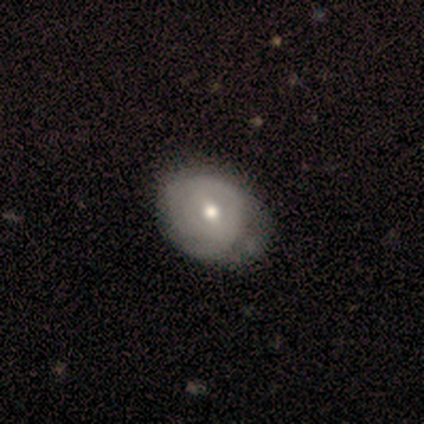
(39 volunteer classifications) smooth-or-featured: featured or disk: 59% | smooth: 41% | star or artifact: 0%
  disk-edge-on: no: 100% | yes: 0%
    bar: weak: 70% | no: 17% | strong: 13%
    has-spiral-arms: yes: 61% | no: 39%
      spiral-winding: tight: 64% | medium: 21% | loose: 14%
      spiral-arm-count: can't tell: 64% | 2: 29% | 1: 7% | 3: 0% | 4: 0% | more than 4: 0%
    bulge-size: moderate: 48% | small: 39% | large: 9% | dominant: 4% | none: 0%
  merging: none: 41% | minor disturbance: 21% | major disturbance: 15% | merger: 5%